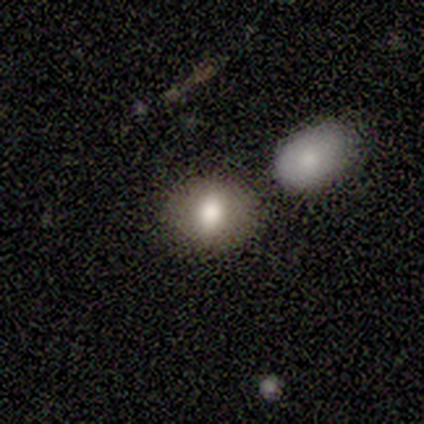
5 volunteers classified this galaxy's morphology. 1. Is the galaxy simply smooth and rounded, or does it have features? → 100% smooth, 0% featured or disk, 0% star or artifact.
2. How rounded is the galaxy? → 60% round, 40% in between, 0% cigar-shaped.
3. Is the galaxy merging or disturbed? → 100% none, 0% minor disturbance, 0% major disturbance, 0% merger.